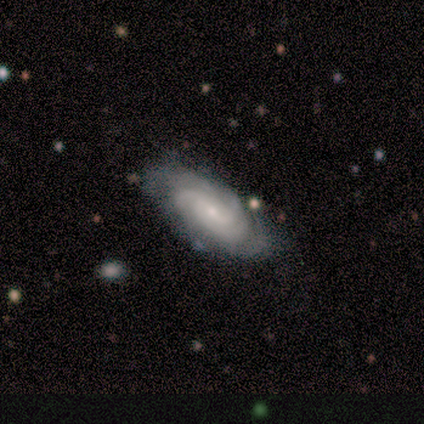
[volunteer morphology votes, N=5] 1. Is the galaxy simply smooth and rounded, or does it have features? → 100% featured or disk, 0% smooth, 0% star or artifact.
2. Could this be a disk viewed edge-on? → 100% no, 0% yes.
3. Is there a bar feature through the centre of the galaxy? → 60% weak, 40% no, 0% strong.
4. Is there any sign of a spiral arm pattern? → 100% yes, 0% no.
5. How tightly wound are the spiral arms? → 80% medium, 20% tight, 0% loose.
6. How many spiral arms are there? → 40% 3, 20% 2, 20% 4, 20% can't tell, 0% 1, 0% more than 4.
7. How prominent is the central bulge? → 100% small, 0% dominant, 0% large, 0% moderate, 0% none.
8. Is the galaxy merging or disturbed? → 100% none, 0% minor disturbance, 0% major disturbance, 0% merger.